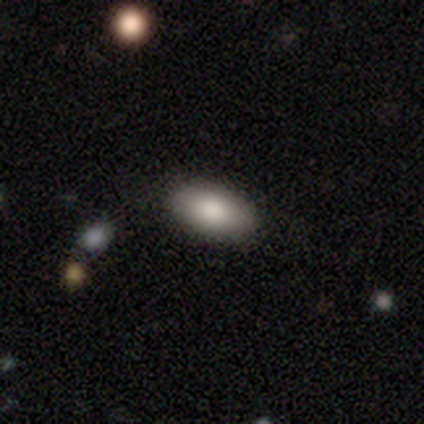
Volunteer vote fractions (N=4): Smooth or featured: smooth — 100%
How rounded: in between — 75% (round — 25%)
Merging: none — 100%